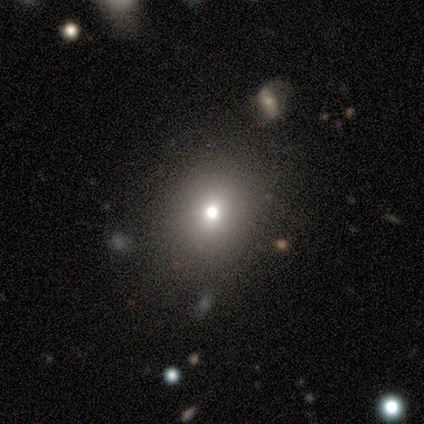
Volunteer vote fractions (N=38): This appears to be a smooth galaxy with no disk features (68%) that is round (88%). Merging: none (69%).